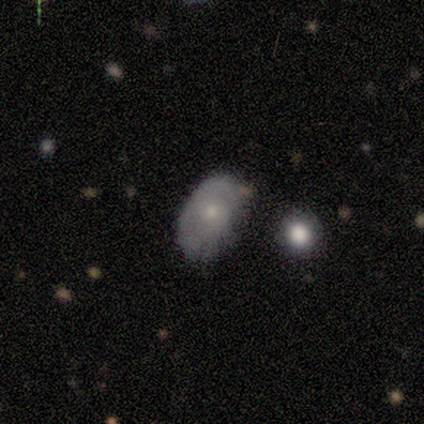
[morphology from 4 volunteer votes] This is likely a smooth galaxy (75%). How rounded: likely round (67%). Merging: clearly none (100%).